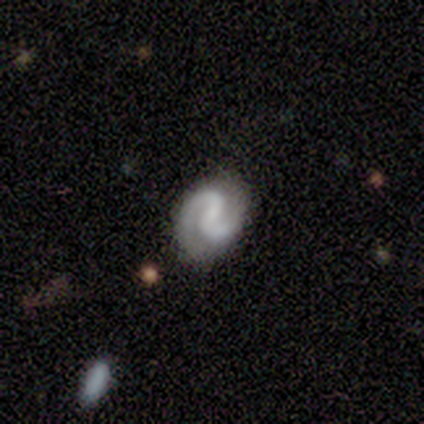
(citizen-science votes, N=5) Morphology: type=featured or disk (100%); edge-on=no (100%); bar=strong (40%, tied with weak); spiral arms=yes (100%); winding=tight (60%); arm count=2 (80%); bulge=none (80%); merging=none (100%).